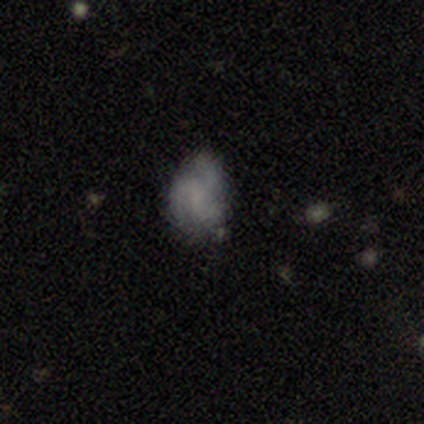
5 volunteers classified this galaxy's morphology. smooth_or_featured: featured or disk (p=0.80) [alt: smooth p=0.20]
disk_edge_on: no (p=1.00)
bar: no (p=1.00)
has_spiral_arms: yes (p=1.00)
spiral_winding: medium (p=1.00)
spiral_arm_count: 3 (p=1.00)
bulge_size: small (p=0.75) [alt: none p=0.25]
merging: none (p=0.60) [alt: major disturbance p=0.40]